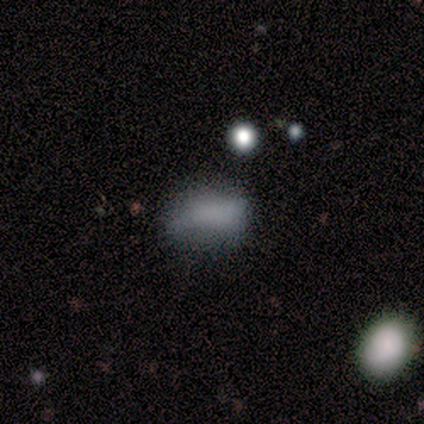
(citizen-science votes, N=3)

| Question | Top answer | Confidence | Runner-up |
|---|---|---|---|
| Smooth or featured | smooth | 67% | featured or disk (33%) |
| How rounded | round | 50% | tied: in between (50%) |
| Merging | none | 67% | minor disturbance (33%) |